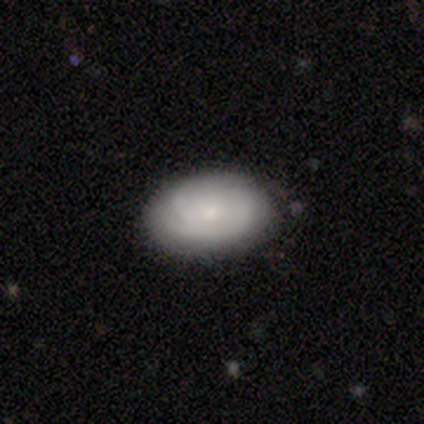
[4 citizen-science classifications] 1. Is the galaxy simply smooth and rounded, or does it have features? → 75% smooth, 25% featured or disk, 0% star or artifact.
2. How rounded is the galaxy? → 100% in between, 0% round, 0% cigar-shaped.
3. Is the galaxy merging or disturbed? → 100% none, 0% minor disturbance, 0% major disturbance, 0% merger.